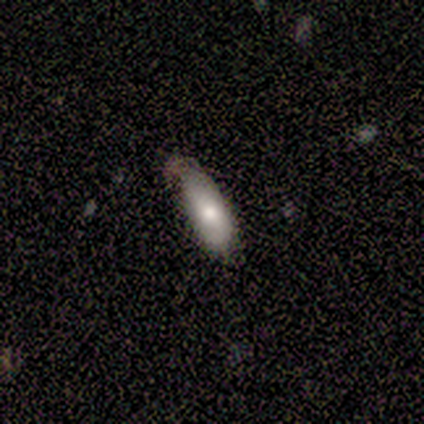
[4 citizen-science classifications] Morphology: type=smooth (100%); roundness=in between (75%); merging=none (50%, tied with minor disturbance).